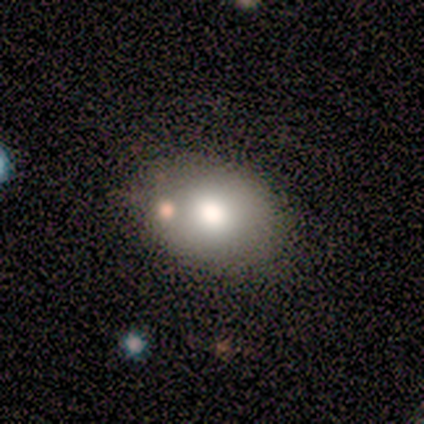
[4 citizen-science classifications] smooth_or_featured: smooth (p=0.75) [alt: star or artifact p=0.25]
how_rounded: round (p=0.67) [alt: in between p=0.33]
merging: none (p=1.00)